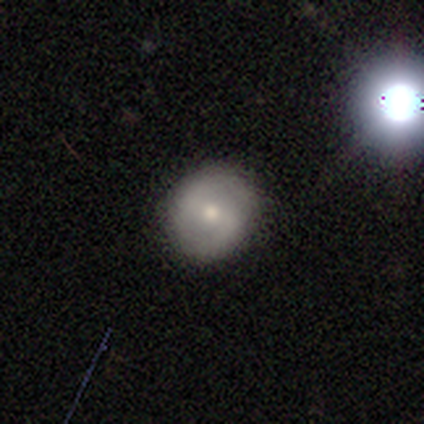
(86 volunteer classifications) Overall: smooth (50%; featured or disk 42%). How rounded: round (84%). Merging: none (84%).